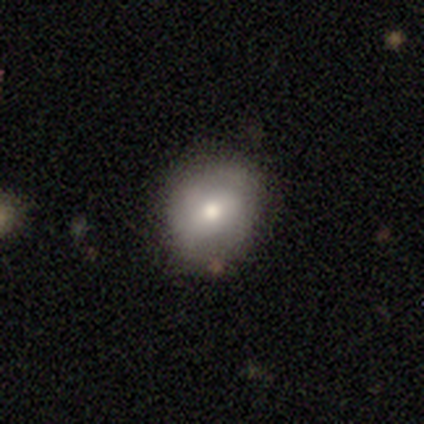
Smooth or featured? 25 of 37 (68%) said smooth. How rounded? 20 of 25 (80%) said round. Merging? 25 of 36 (69%) said none.